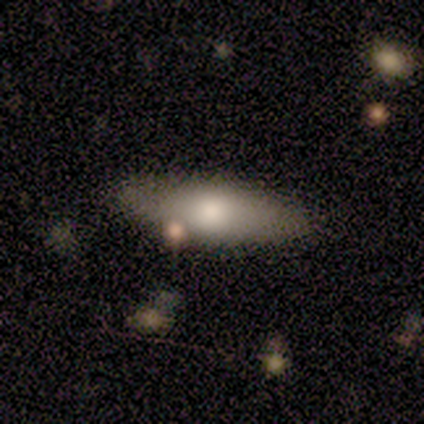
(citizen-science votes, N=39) Smooth or featured?
  - smooth: 77% *
  - featured or disk: 15%
  - star or artifact: 8%
How rounded?
  - in between: 60% *
  - cigar-shaped: 40%
  - round: 0%
Merging?
  - none: 67% *
  - merger: 14%
  - minor disturbance: 6%
  - major disturbance: 3%